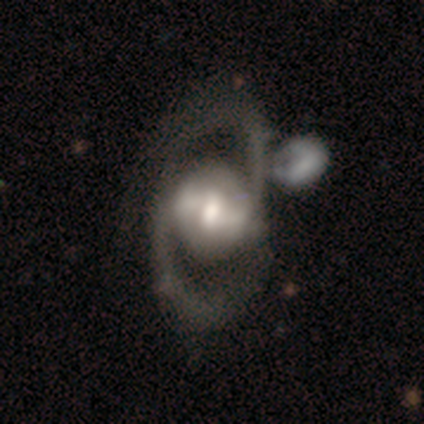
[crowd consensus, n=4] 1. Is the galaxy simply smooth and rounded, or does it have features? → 75% featured or disk, 25% smooth, 0% star or artifact.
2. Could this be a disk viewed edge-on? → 100% no, 0% yes.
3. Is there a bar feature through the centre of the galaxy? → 67% strong, 33% no, 0% weak.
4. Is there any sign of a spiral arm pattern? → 100% yes, 0% no.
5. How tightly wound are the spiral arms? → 67% medium, 33% loose, 0% tight.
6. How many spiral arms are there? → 100% 2, 0% 1, 0% 3, 0% 4, 0% more than 4, 0% can't tell.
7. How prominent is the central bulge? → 33% large (tied), 33% moderate (tied), 33% none (tied), 0% dominant, 0% small.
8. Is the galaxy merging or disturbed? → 50% none (tied), 50% merger (tied), 0% minor disturbance, 0% major disturbance.